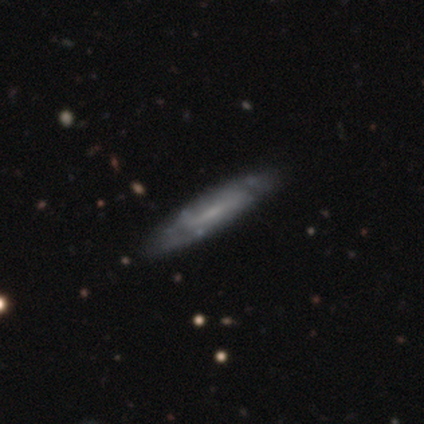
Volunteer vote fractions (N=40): Smooth or featured? 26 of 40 (65%) said featured or disk. Edge-on disk? 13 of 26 (50%, tied with no) said yes. Edge-on bulge? 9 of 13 (69%) said none. Merging? 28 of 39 (72%) said none.